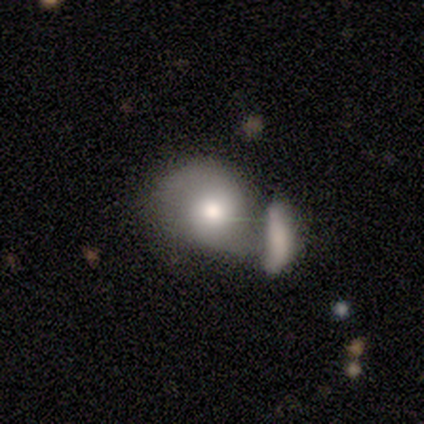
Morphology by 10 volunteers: Overall: smooth (50%, tied with featured or disk). How rounded: round (60%; in between 40%). Merging: none (40%, tied with merger).